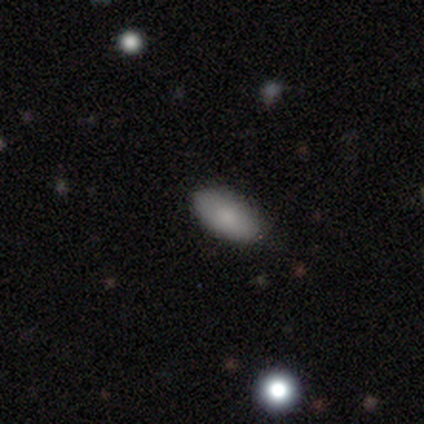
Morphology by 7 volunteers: A smooth galaxy with no disk features (86%) that is in between round and cigar-shaped (83%). Merging: none (100%).